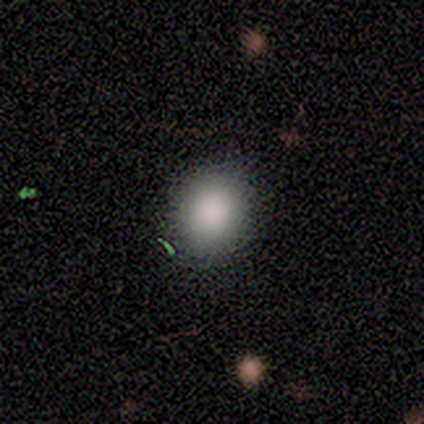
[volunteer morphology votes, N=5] Overall: smooth (100%). How rounded: round (80%). Merging: none (100%).